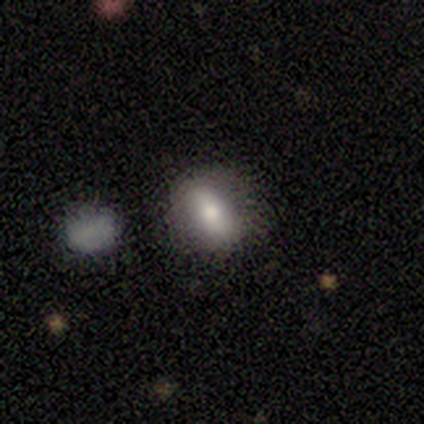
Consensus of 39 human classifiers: Smooth or featured: smooth — 72% (featured or disk — 18%)
How rounded: in between — 79% (round — 18%)
Merging: none — 86% (minor disturbance — 6%)